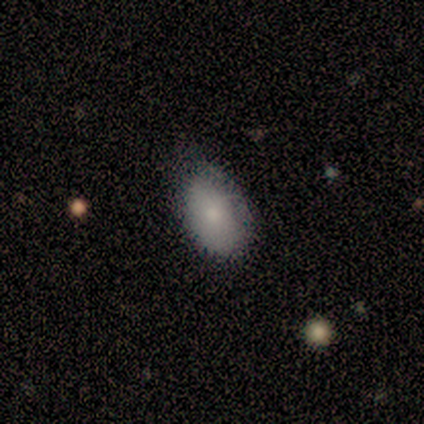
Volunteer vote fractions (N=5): A smooth galaxy with no disk features (40%, tied with featured or disk) that is in between round and cigar-shaped (100%). Merging: none (50%, tied with minor disturbance).